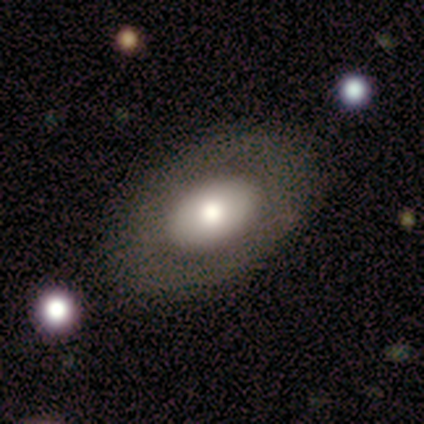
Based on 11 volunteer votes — Smooth or featured?
  - smooth: 55% *
  - featured or disk: 45%
  - star or artifact: 0%
How rounded?
  - in between: 83% *
  - round: 17%
  - cigar-shaped: 0%
Merging?
  - none: 91% *
  - minor disturbance: 9%
  - major disturbance: 0%
  - merger: 0%